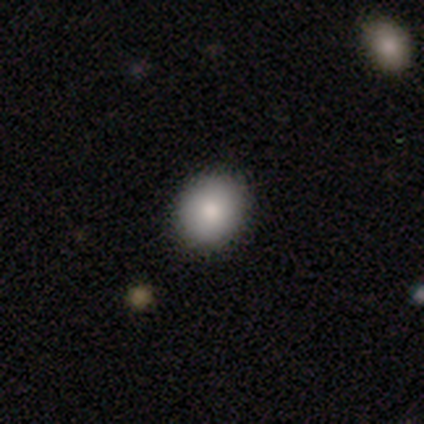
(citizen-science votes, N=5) smooth 100%, featured or disk 0%, star or artifact 0%. Down the decision tree: how rounded — round (60%); merging — none (80%).